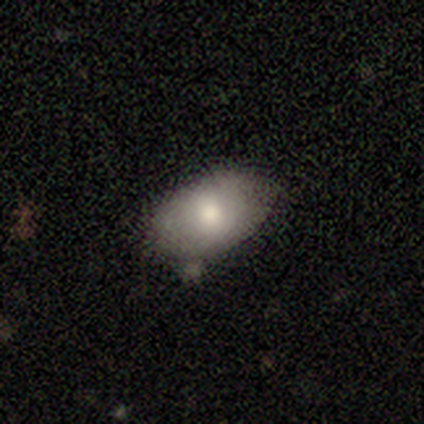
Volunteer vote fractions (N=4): A smooth galaxy with no disk features (100%) that is in between round and cigar-shaped (100%). Merging: none (75%).